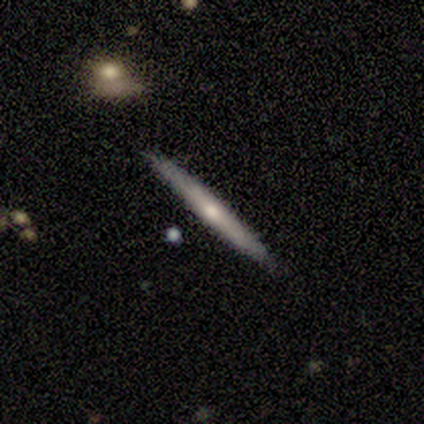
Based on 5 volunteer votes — Smooth or featured? 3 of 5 (60%) said featured or disk. Edge-on disk? 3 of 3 (100%) said yes. Edge-on bulge? 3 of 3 (100%) said none. Merging? 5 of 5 (100%) said none.